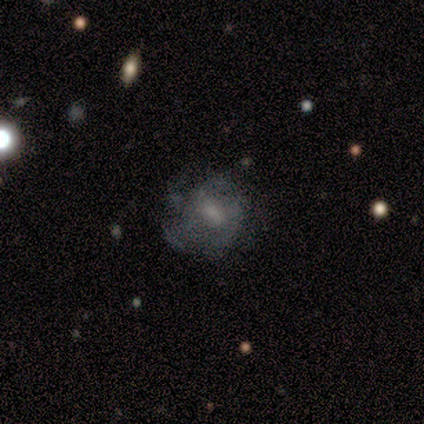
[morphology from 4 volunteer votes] type=smooth (50%, tied with featured or disk); roundness=round (50%, tied with in between); merging=none (75%).